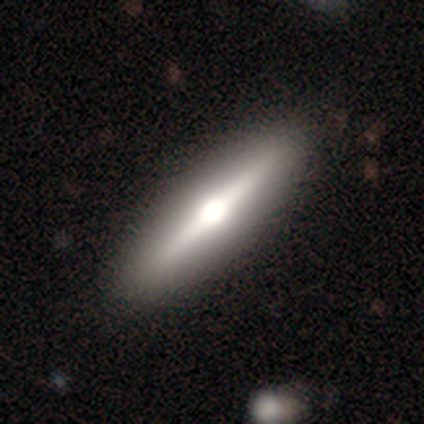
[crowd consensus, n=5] A smooth galaxy with no disk features (40%, tied with featured or disk) that is cigar-shaped (100%).

Vote fractions:
- Smooth or featured? smooth: 40% (tied) / featured or disk: 40% (tied) / star or artifact: 20%
- How rounded? cigar-shaped: 100% / round: 0% / in between: 0%
- Merging? none: 100% / minor disturbance: 0% / major disturbance: 0% / merger: 0%